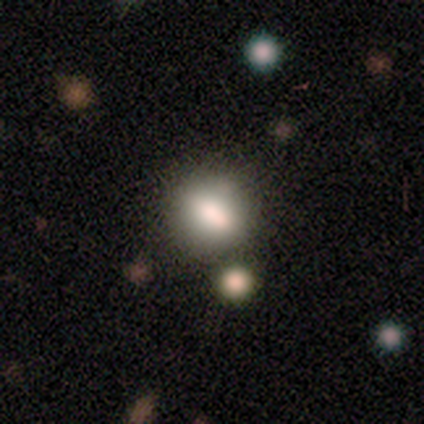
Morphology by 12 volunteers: smooth_or_featured: smooth (p=0.58) [alt: star or artifact p=0.42]
how_rounded: in between (p=0.43) [alt: round p=0.29]
merging: none (p=1.00)